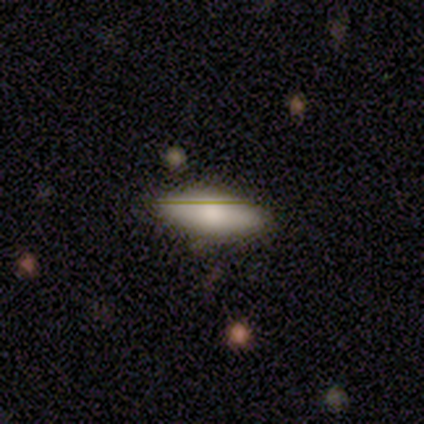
Smooth or featured: smooth — 67% (featured or disk — 33%)
How rounded: in between — 100%
Merging: none — 100%